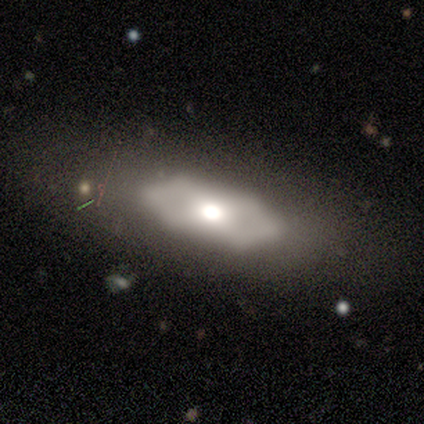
Overall: featured or disk (56%; smooth 38%). Edge-on disk: no (86%). Bar: no (84%). Spiral arms: no (89%). Bulge size: moderate (58%; large 42%). Merging: none (59%).